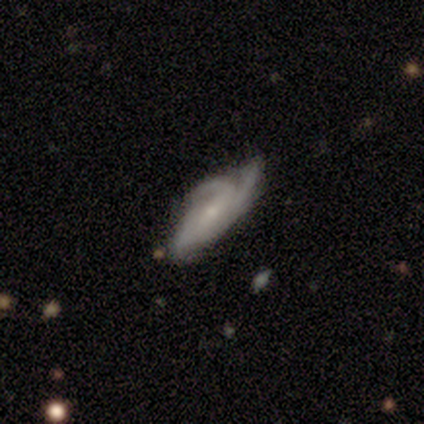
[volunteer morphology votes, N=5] A featured or disk galaxy (80%) with no bar (100%), 3 (67%) medium (100%) spiral arms (100%) and a small central bulge (100%).

Vote fractions:
- Smooth or featured? featured or disk: 80% / smooth: 20% / star or artifact: 0%
- Edge-on disk? no: 75% / yes: 25%
- Bar? no: 100% / strong: 0% / weak: 0%
- Spiral arms? yes: 100% / no: 0%
- Spiral winding? medium: 100% / tight: 0% / loose: 0%
- Spiral arm count? 3: 67% / 2: 33% / 1: 0% / 4: 0% / more than 4: 0% / can't tell: 0%
- Bulge size? small: 100% / dominant: 0% / large: 0% / moderate: 0% / none: 0%
- Merging? none: 100% / minor disturbance: 0% / major disturbance: 0% / merger: 0%